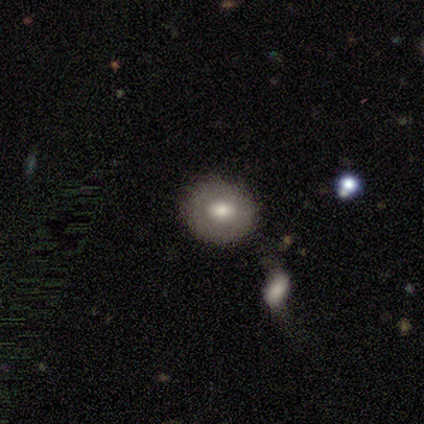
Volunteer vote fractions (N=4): Volunteers were most divided on "smooth or featured": smooth: 50%, featured or disk: 25%, star or artifact: 25%. More confident: how rounded — round (100%); merging — none (67%).